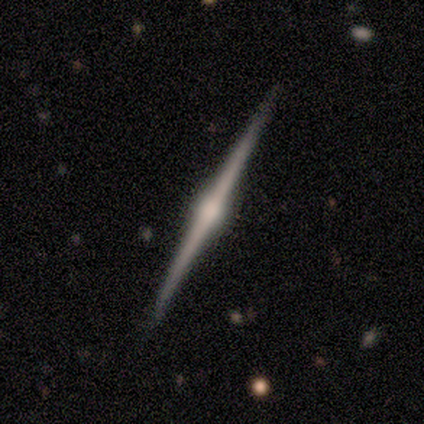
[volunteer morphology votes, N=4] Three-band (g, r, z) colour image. It shows a featured or disk galaxy (75%) viewed edge-on (100%) with a rounded central bulge (100%). Merging: none (100%).